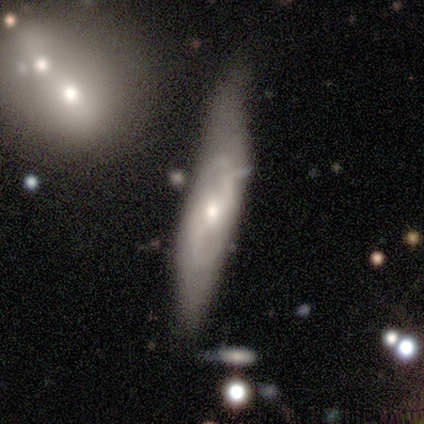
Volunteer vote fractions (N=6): Smooth or featured? featured or disk (83%)
Edge-on disk? no (100%)
Bar? no (60%)
Spiral arms? yes (60%)
Spiral winding? loose (67%)
Spiral arm count? 2 (100%)
Bulge size? small (80%)
Merging? none (50%)